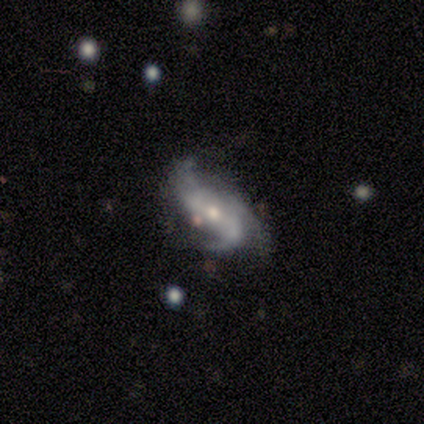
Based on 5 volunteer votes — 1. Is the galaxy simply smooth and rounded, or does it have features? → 80% featured or disk, 20% smooth, 0% star or artifact.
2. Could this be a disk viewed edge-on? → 100% no, 0% yes.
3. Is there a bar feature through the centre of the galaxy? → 50% weak (tied), 50% no (tied), 0% strong.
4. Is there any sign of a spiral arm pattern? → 100% yes, 0% no.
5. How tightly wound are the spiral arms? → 50% tight (tied), 50% loose (tied), 0% medium.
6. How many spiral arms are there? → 75% 2, 25% 3, 0% 1, 0% 4, 0% more than 4, 0% can't tell.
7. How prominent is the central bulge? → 50% moderate, 25% large, 25% small, 0% dominant, 0% none.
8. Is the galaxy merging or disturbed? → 80% none, 20% minor disturbance, 0% major disturbance, 0% merger.